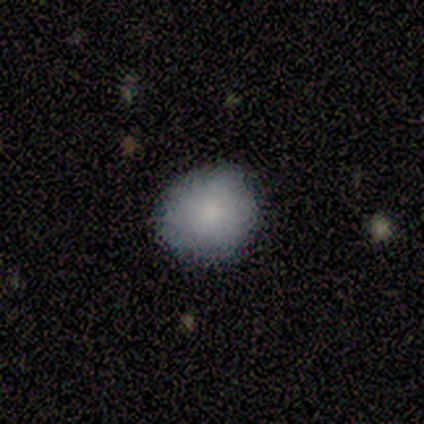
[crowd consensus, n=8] Q: Smooth or featured?
A: smooth (62%); runner-up: featured or disk (38%)
Q: How rounded?
A: in between (80%); runner-up: round (20%)
Q: Merging?
A: none (62%); runner-up: minor disturbance (38%)